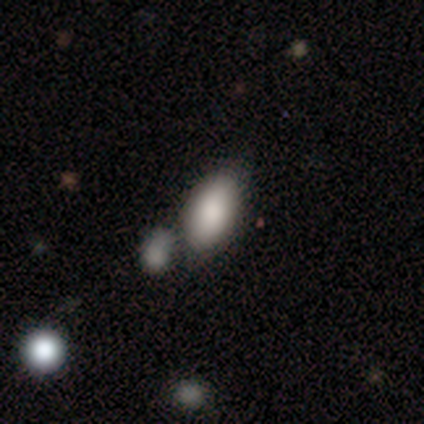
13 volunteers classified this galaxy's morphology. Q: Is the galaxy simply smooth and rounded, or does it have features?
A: smooth — 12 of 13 (92%).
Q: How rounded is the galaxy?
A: in between — 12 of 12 (100%).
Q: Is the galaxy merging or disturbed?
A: none — 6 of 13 (46%).